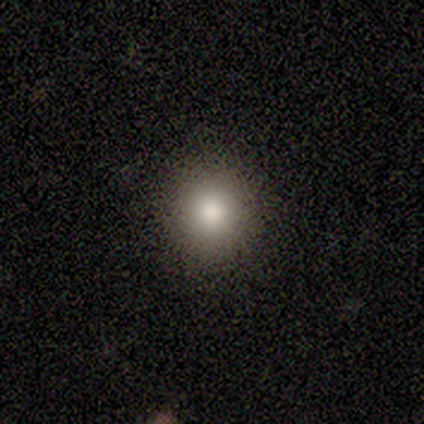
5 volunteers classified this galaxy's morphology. This appears to be a smooth galaxy with no disk features (80%) that is round (50%, tied with in between). Merging: none (80%).